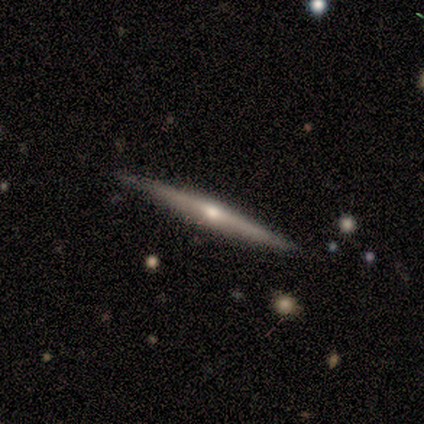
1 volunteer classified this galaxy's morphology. smooth_or_featured: featured or disk (p=1.00)
disk_edge_on: yes (p=1.00)
edge_on_bulge: none (p=1.00)
merging: none (p=1.00)